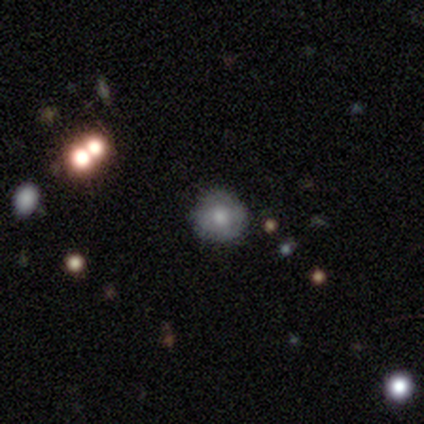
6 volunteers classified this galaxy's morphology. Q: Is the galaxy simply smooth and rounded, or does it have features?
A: smooth — 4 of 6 (67%).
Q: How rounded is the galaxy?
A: round — 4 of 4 (100%).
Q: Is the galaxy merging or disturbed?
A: none — 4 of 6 (67%).